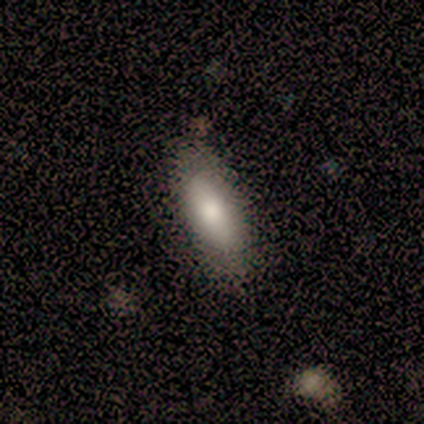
Smooth or featured? 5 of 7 (71%) said smooth. How rounded? 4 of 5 (80%) said in between. Merging? 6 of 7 (86%) said none.